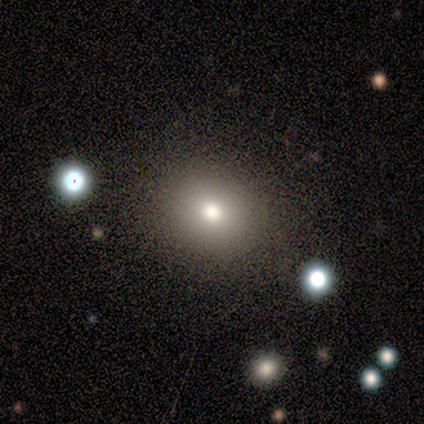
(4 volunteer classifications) smooth-or-featured: smooth: 100% | featured or disk: 0% | star or artifact: 0%
  how-rounded: round: 100% | in between: 0% | cigar-shaped: 0%
  merging: none: 100% | minor disturbance: 0% | major disturbance: 0% | merger: 0%